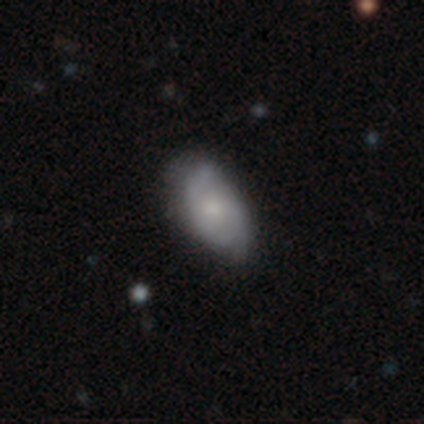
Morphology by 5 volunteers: Smooth or featured? featured or disk (80%)
Edge-on disk? no (100%)
Bar? no (100%)
Spiral arms? yes (75%)
Spiral winding? loose (100%)
Spiral arm count? 2 (100%)
Bulge size? moderate (50%, tied with small)
Merging? none (100%)